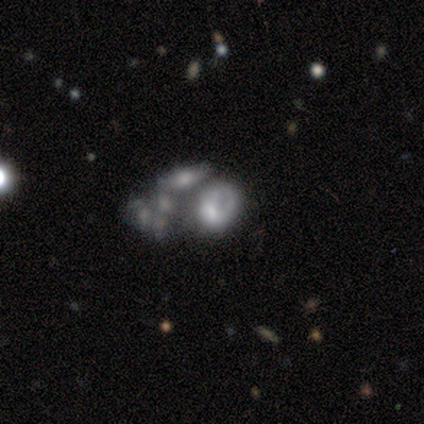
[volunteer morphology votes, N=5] smooth-or-featured: featured or disk: 80% | star or artifact: 20% | smooth: 0%
  disk-edge-on: no: 100% | yes: 0%
    bar: no: 100% | strong: 0% | weak: 0%
    has-spiral-arms: no: 100% | yes: 0%
    bulge-size: small: 50% | moderate: 25% | none: 25% | dominant: 0% | large: 0%
  merging: none: 50% | major disturbance: 25% | merger: 25% | minor disturbance: 0%